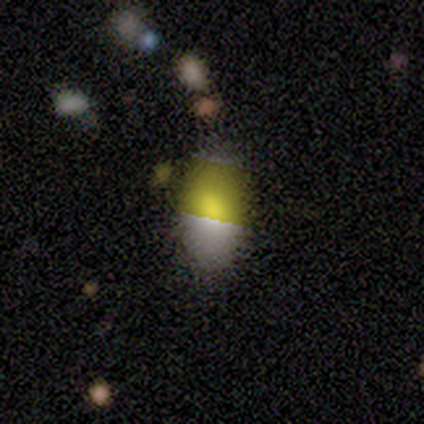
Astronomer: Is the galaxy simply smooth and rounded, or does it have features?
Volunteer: smooth — 83%.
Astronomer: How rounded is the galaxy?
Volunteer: in between — 100%.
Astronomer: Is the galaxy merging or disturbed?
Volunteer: none — 50% (runner-up: minor disturbance, 33%).